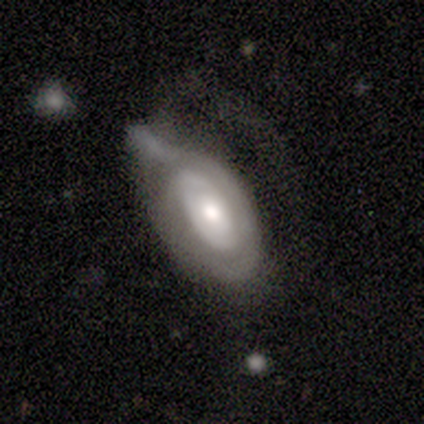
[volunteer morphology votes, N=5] A featured or disk galaxy (60%) with no bar (67%), no spiral arms (67%) and a moderate central bulge (67%). Merging: major disturbance (60%).